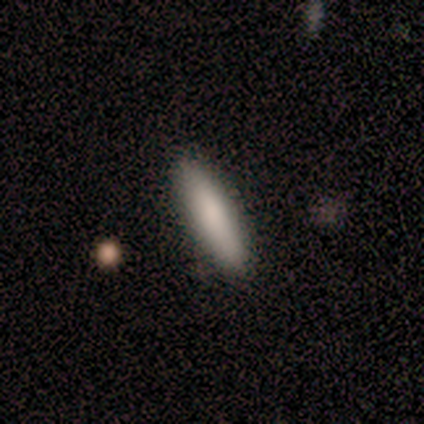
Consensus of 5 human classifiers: This is clearly a smooth galaxy (80%). How rounded: likely cigar-shaped (75%). Merging: clearly none (100%).